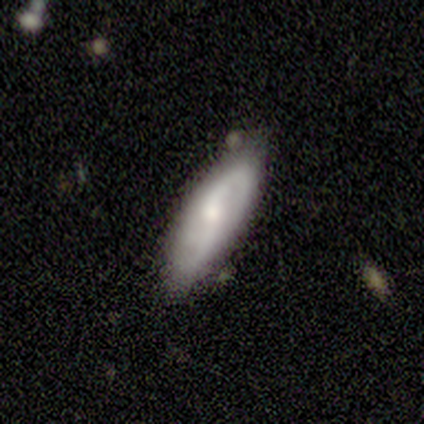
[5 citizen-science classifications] smooth_or_featured: featured or disk (p=0.60) [alt: smooth p=0.40]
disk_edge_on: no (p=1.00)
bar: no (p=0.67) [alt: weak p=0.33]
has_spiral_arms: yes (p=1.00)
spiral_winding: medium (p=0.67) [alt: loose p=0.33]
spiral_arm_count: 2 (p=1.00)
bulge_size: moderate (p=0.67) [alt: small p=0.33]
merging: none (p=0.80) [alt: minor disturbance p=0.20]